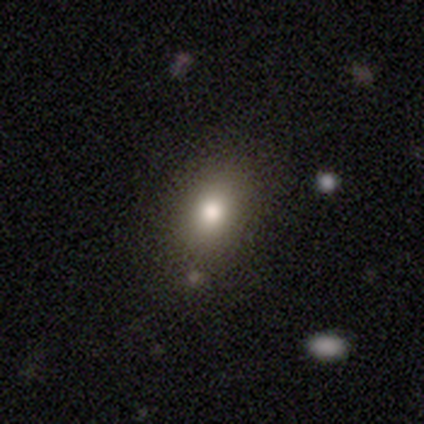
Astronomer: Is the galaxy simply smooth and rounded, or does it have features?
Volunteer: smooth — 70%.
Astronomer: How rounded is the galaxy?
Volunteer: in between — 71%.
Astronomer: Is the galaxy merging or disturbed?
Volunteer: none — 89%.